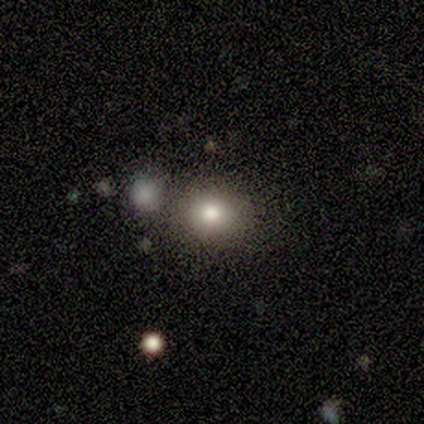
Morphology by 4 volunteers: Smooth or featured: smooth — 75% (star or artifact — 25%)
How rounded: round — 100%
Merging: none — 67% (minor disturbance — 33%)